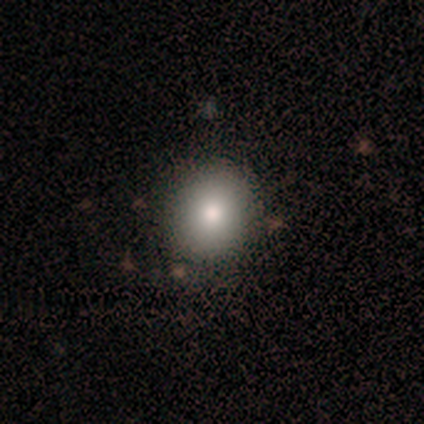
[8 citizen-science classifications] A smooth galaxy with no disk features (100%) that is in between round and cigar-shaped (62%). Merging: none (100%).